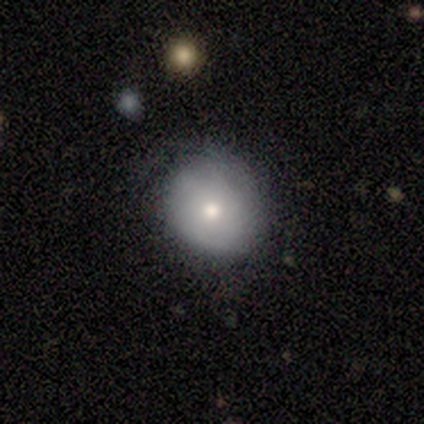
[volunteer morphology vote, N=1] Q: Smooth or featured?
A: smooth (100%)
Q: How rounded?
A: in between (100%)
Q: Merging?
A: none (100%)